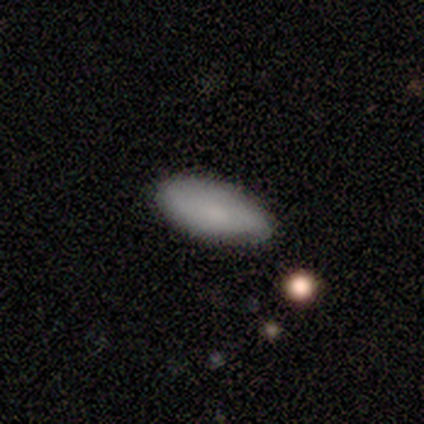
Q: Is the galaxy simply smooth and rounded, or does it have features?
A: smooth — 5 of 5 (100%).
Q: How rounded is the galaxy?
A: in between — 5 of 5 (100%).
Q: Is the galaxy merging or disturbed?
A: none — 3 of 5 (60%).